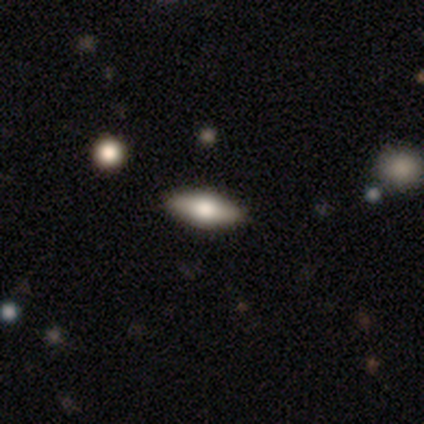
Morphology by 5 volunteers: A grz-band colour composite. It shows a smooth galaxy with no disk features (40%, tied with star or artifact) that is in between round and cigar-shaped (100%). Merging: none (100%).